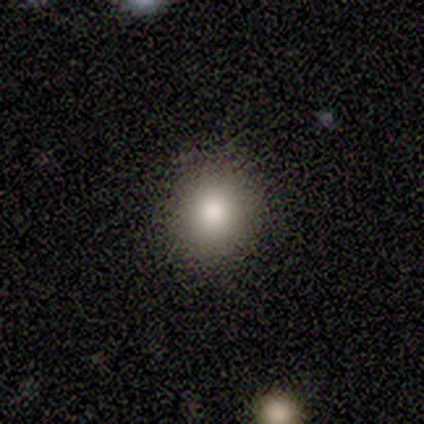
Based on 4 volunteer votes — Smooth or featured: smooth — 100%
How rounded: round — 50% (tied with in between — 50%)
Merging: none — 75% (minor disturbance — 25%)